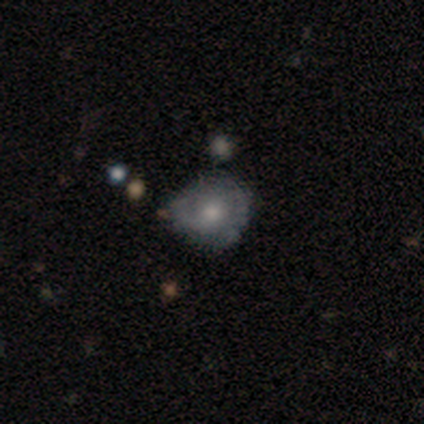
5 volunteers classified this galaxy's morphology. This is clearly a featured or disk galaxy (80%). It is clearly not viewed edge-on (100%). Bar: possibly weak (50%, tied with no). Spiral arm pattern: possibly yes (50%, tied with no). Spiral arm count: possibly 2 (50%, tied with 3). Spiral winding: possibly tight (50%, tied with loose). Central bulge: possibly moderate (50%, tied with small). Merging: clearly none (100%).